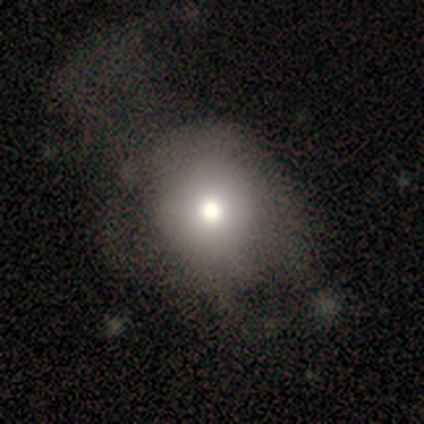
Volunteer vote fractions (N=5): A smooth galaxy with no disk features (80%) that is round (100%).

Vote fractions:
- Smooth or featured? smooth: 80% / featured or disk: 20% / star or artifact: 0%
- How rounded? round: 100% / in between: 0% / cigar-shaped: 0%
- Merging? minor disturbance: 40% (tied) / major disturbance: 40% (tied) / none: 20% / merger: 0%